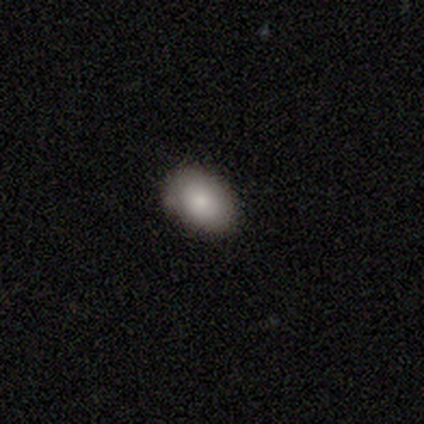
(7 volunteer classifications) This is clearly a smooth galaxy (86%). How rounded: clearly in between (100%). Merging: clearly none (83%).